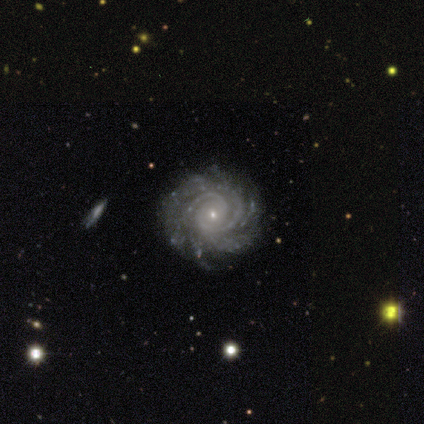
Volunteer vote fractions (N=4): Smooth or featured? featured or disk (100%)
Edge-on disk? no (100%)
Bar? no (100%)
Spiral arms? yes (100%)
Spiral winding? tight (100%)
Spiral arm count? 2 (25%, tied with 4, more than 4 and can't tell)
Bulge size? small (100%)
Merging? none (75%)